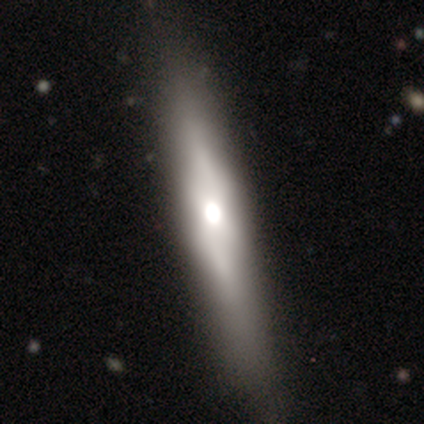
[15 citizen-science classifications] smooth-or-featured: featured or disk: 60% | smooth: 33% | star or artifact: 7%
  disk-edge-on: yes: 100% | no: 0%
    edge-on-bulge: rounded: 78% | boxy: 22% | none: 0%
  merging: none: 71% | minor disturbance: 21% | merger: 7% | major disturbance: 0%